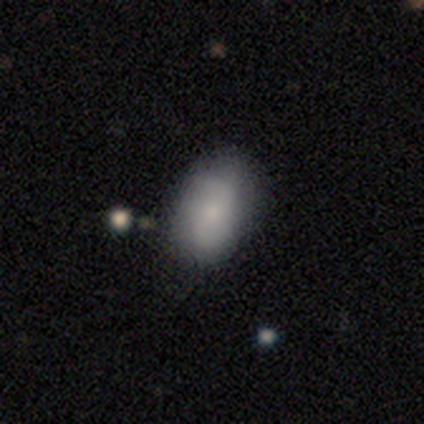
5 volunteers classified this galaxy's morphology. A smooth galaxy with no disk features (80%) that is in between round and cigar-shaped (100%).

Vote fractions:
- Smooth or featured? smooth: 80% / featured or disk: 20% / star or artifact: 0%
- How rounded? in between: 100% / round: 0% / cigar-shaped: 0%
- Merging? none: 100% / minor disturbance: 0% / major disturbance: 0% / merger: 0%